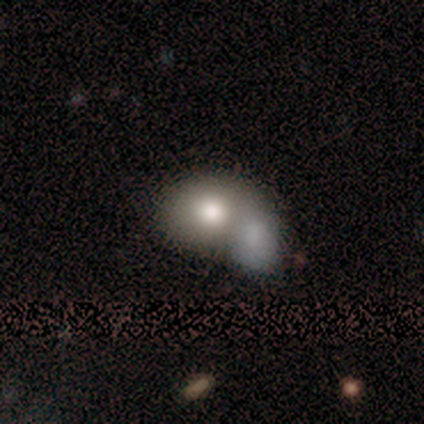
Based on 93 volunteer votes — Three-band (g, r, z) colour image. It shows a smooth galaxy with no disk features (72%) that is round (52%). Merging: merger (71%).